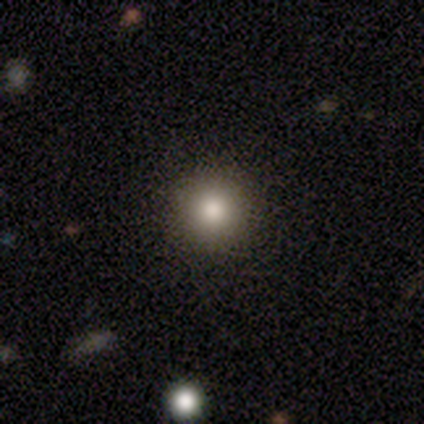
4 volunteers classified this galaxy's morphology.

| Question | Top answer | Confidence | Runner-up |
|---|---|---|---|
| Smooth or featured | smooth | 100% | — |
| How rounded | round | 100% | — |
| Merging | none | 100% | — |